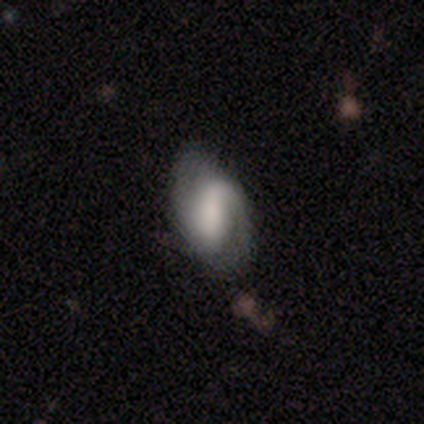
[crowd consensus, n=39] Smooth or featured? featured or disk (77%)
Edge-on disk? no (100%)
Bar? strong (60%)
Spiral arms? yes (83%)
Spiral winding? medium (44%)
Spiral arm count? 2 (68%)
Bulge size? large (40%)
Merging? none (46%)